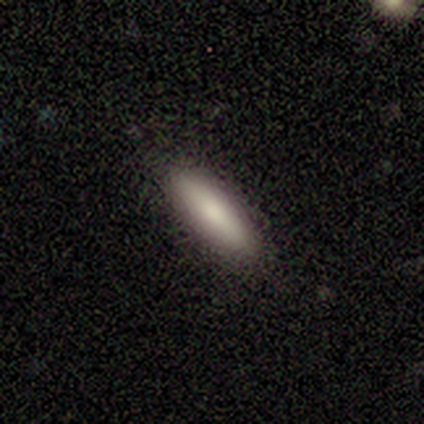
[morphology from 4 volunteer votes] smooth 100%, featured or disk 0%, star or artifact 0%. Down the decision tree: how rounded — cigar-shaped (75%); merging — none (75%).